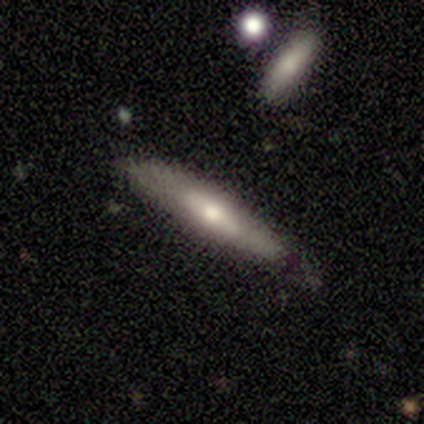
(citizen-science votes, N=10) Q: Smooth or featured?
A: smooth (60%); runner-up: featured or disk (40%)
Q: How rounded?
A: cigar-shaped (100%)
Q: Merging?
A: none (90%); runner-up: minor disturbance (10%)